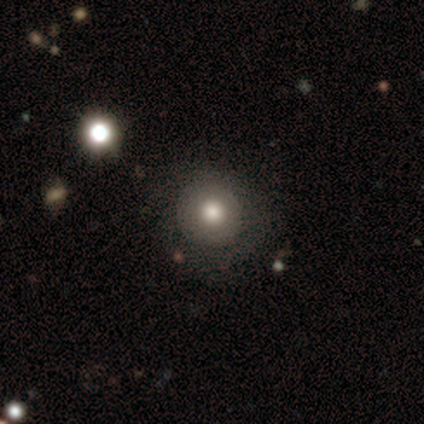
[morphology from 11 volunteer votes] Smooth or featured? smooth (73%)
How rounded? round (100%)
Merging? none (82%)